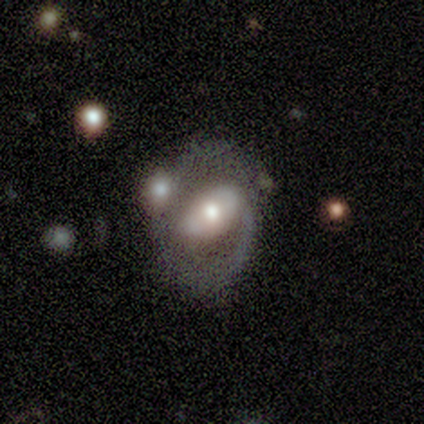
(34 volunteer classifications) Overall: featured or disk (71%). Edge-on disk: no (100%). Bar: strong (33%, tied with weak and no). Spiral arms: yes (67%; no 33%). Spiral arm count: 2 (50%; 1 25%). Spiral winding: tight (44%, tied with medium). Bulge size: moderate (58%; large 29%). Merging: major disturbance (39%; none 21%).